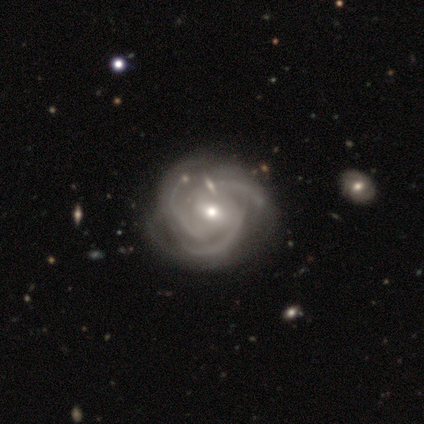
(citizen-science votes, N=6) smooth-or-featured: featured or disk: 100% | smooth: 0% | star or artifact: 0%
  disk-edge-on: no: 100% | yes: 0%
    bar: weak: 50% | strong: 33% | no: 17%
    has-spiral-arms: yes: 100% | no: 0%
      spiral-winding: tight: 83% | medium: 17% | loose: 0%
      spiral-arm-count: 3: 100% | 1: 0% | 2: 0% | 4: 0% | more than 4: 0% | can't tell: 0%
    bulge-size: moderate: 50% (tied) | small: 50% (tied) | dominant: 0% | large: 0% | none: 0%
  merging: none: 67% | minor disturbance: 17% | major disturbance: 17% | merger: 0%